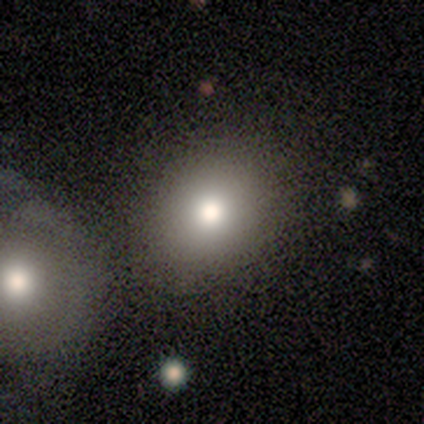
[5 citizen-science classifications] Smooth or featured: featured or disk — 60% (smooth — 40%)
Edge-on disk: no — 100%
Bar: no — 67% (strong — 33%)
Spiral arms: no — 100%
Bulge size: moderate — 67% (small — 33%)
Merging: none — 60% (minor disturbance — 40%)